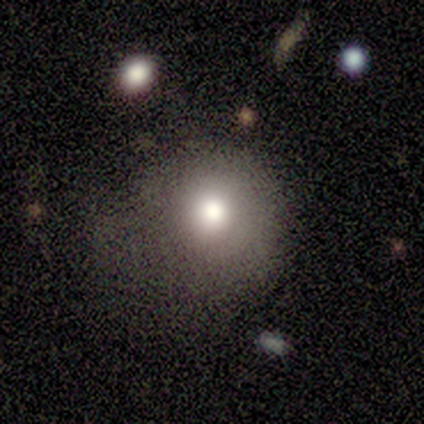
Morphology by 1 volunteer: A smooth galaxy with no disk features (100%) that is round (100%).

Vote fractions:
- Smooth or featured? smooth: 100% / featured or disk: 0% / star or artifact: 0%
- How rounded? round: 100% / in between: 0% / cigar-shaped: 0%
- Merging? minor disturbance: 100% / none: 0% / major disturbance: 0% / merger: 0%